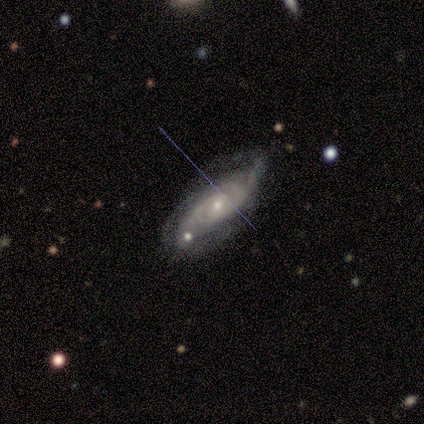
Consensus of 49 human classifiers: Smooth or featured?
  - featured or disk: 92% *
  - smooth: 4%
  - star or artifact: 4%
Edge-on disk?
  - no: 96% *
  - yes: 4%
Bar?
  - no: 67% *
  - weak: 26%
  - strong: 7%
Spiral arms?
  - yes: 95% *
  - no: 5%
Spiral winding?
  - tight: 66% *
  - medium: 24%
  - loose: 10%
Spiral arm count?
  - 2: 44% *
  - can't tell: 27%
  - 3: 15%
  - 4: 12%
  - 1: 2%
  - more than 4: 0%
Bulge size?
  - small: 47% *
  - moderate: 44%
  - large: 7%
  - none: 2%
  - dominant: 0%
Merging?
  - none: 60% *
  - minor disturbance: 30%
  - major disturbance: 6%
  - merger: 4%